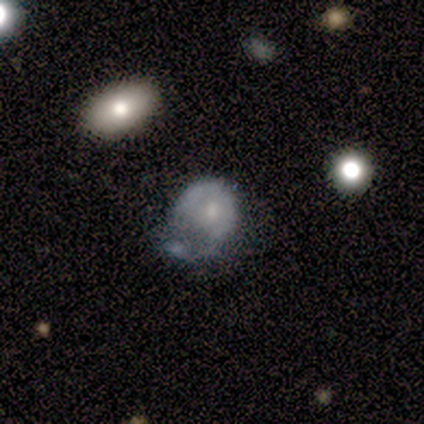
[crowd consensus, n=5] Smooth or featured?
  - featured or disk: 60% *
  - smooth: 40%
  - star or artifact: 0%
Edge-on disk?
  - no: 100% *
  - yes: 0%
Bar?
  - no: 100% *
  - strong: 0%
  - weak: 0%
Spiral arms?
  - no: 67% *
  - yes: 33%
Bulge size?
  - small: 67% *
  - moderate: 33%
  - dominant: 0%
  - large: 0%
  - none: 0%
Merging?
  - minor disturbance: 60% *
  - major disturbance: 40%
  - none: 0%
  - merger: 0%